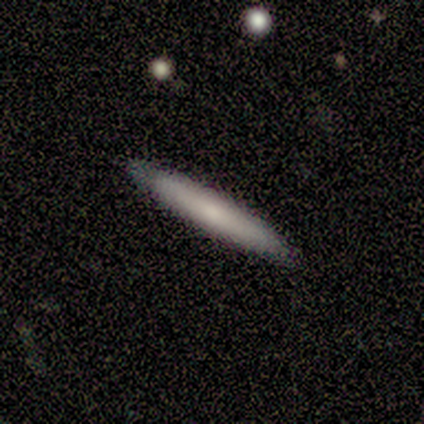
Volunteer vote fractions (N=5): Overall: smooth (80%). How rounded: cigar-shaped (100%). Merging: none (100%).